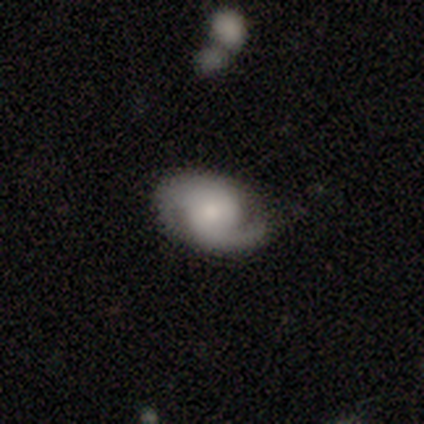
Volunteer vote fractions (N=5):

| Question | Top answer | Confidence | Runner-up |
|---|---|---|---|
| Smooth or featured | featured or disk | 60% | smooth (40%) |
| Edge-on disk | no | 100% | — |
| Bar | weak | 67% | no (33%) |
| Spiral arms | yes | 100% | — |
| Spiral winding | tight | 67% | medium (33%) |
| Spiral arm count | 2 | 100% | — |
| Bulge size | moderate | 100% | — |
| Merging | none | 60% | minor disturbance (40%) |